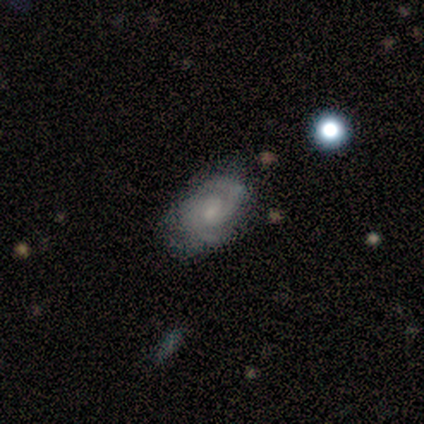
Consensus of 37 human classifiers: featured or disk 78%, smooth 19%, star or artifact 3%. Down the decision tree: edge-on disk — no (93%); bar — no (52%); spiral arms — yes (93%); spiral arm count — 2 (80%); spiral winding — tight (52%); bulge size — small (56%); merging — none (47%).